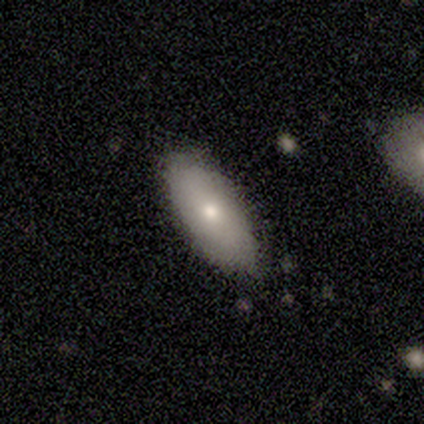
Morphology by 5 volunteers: Volunteers were most divided on "merging": none: 60%, minor disturbance: 40%, major disturbance: 0%, merger: 0%. More confident: how rounded — in between (100%); smooth or featured — smooth (80%).